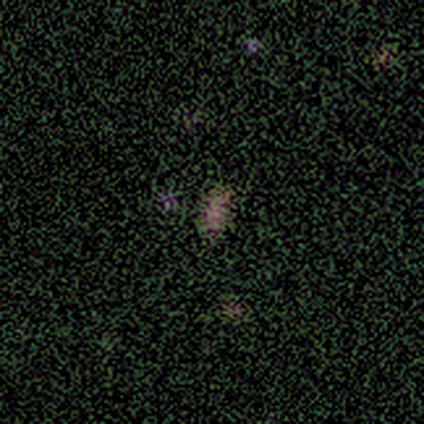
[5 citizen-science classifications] smooth 40% (tied), featured or disk 40% (tied), star or artifact 20%. Down the decision tree: how rounded — in between (100%); merging — none (75%).